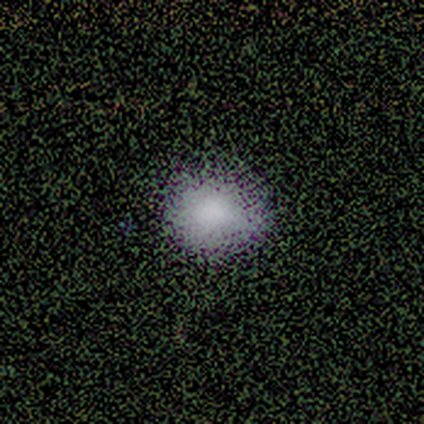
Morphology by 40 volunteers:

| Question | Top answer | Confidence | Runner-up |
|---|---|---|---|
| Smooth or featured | smooth | 70% | star or artifact (25%) |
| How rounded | round | 57% | in between (43%) |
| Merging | none | 53% | minor disturbance (10%) |